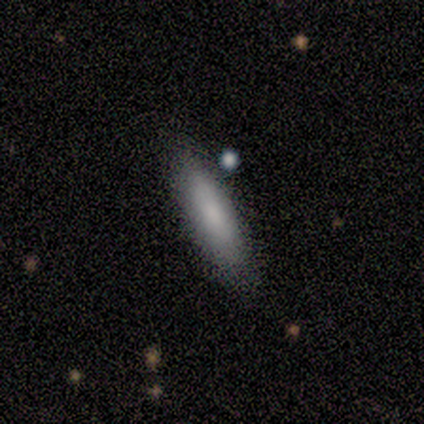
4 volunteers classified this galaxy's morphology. This appears to be a smooth galaxy with no disk features (75%) that is cigar-shaped (67%). Merging: none (100%).